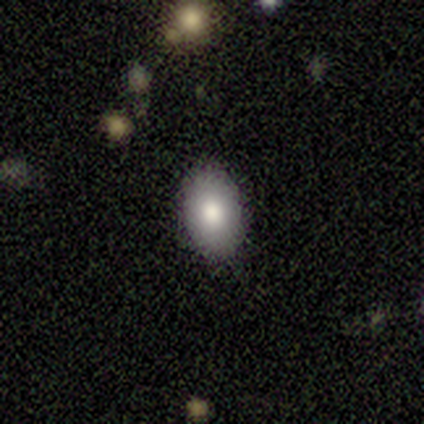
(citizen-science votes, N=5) A smooth galaxy with no disk features (100%) that is in between round and cigar-shaped (100%).

Vote fractions:
- Smooth or featured? smooth: 100% / featured or disk: 0% / star or artifact: 0%
- How rounded? in between: 100% / round: 0% / cigar-shaped: 0%
- Merging? none: 100% / minor disturbance: 0% / major disturbance: 0% / merger: 0%